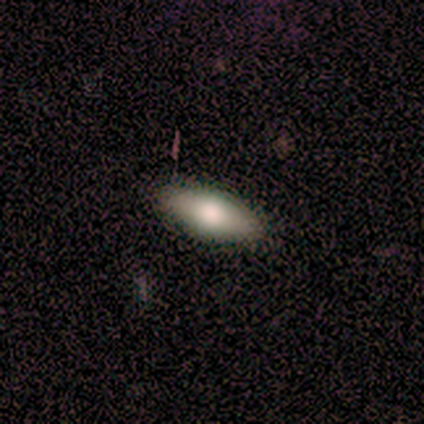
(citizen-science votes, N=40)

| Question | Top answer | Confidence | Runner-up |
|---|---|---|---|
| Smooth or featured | smooth | 72% | featured or disk (22%) |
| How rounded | in between | 86% | cigar-shaped (10%) |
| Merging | none | 84% | minor disturbance (16%) |